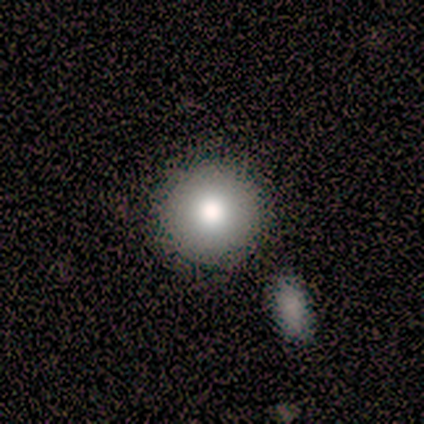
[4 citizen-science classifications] A smooth galaxy with no disk features (100%) that is round (100%). Merging: none (75%).